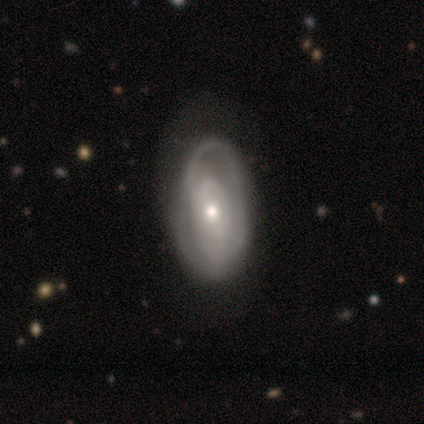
Q: Smooth or featured?
A: featured or disk (100%)
Q: Edge-on disk?
A: no (100%)
Q: Bar?
A: no (60%); runner-up: weak (40%)
Q: Spiral arms?
A: yes (100%)
Q: Spiral winding?
A: tight (40%); tied with: medium (40%)
Q: Spiral arm count?
A: 2 (60%); runner-up: can't tell (40%)
Q: Bulge size?
A: moderate (80%); runner-up: small (20%)
Q: Merging?
A: none (60%); runner-up: minor disturbance (40%)